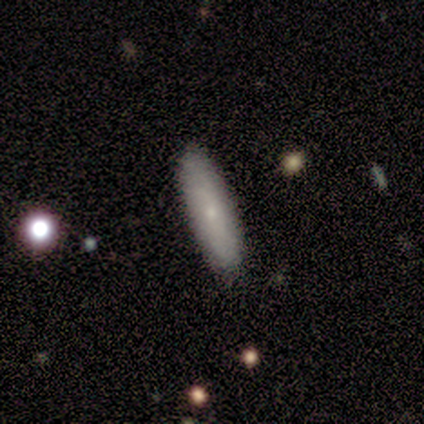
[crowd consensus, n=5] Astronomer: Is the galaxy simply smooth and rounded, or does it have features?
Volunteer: featured or disk — 60% (runner-up: smooth, 40%).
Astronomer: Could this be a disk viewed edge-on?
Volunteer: no — 67%.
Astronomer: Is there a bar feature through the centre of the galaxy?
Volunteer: no — 100%.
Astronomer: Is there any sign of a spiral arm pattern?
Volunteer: no — 100%.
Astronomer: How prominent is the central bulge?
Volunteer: small — 100%.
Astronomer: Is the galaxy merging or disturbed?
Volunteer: none — 80%.